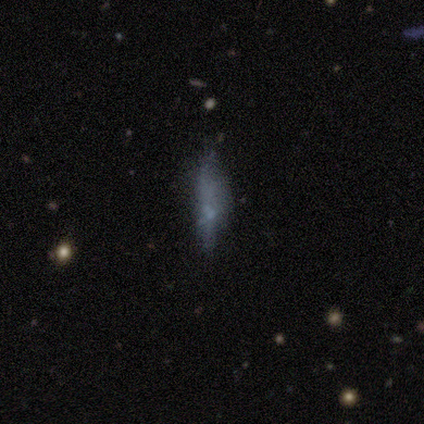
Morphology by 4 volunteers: Smooth or featured: star or artifact — 50% (smooth — 25%)